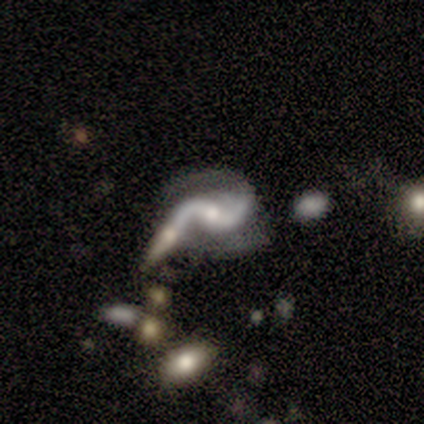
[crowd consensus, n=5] A featured or disk galaxy (100%) with a weak bar (80%), 2 (100%) loose (80%) spiral arms (100%) and a moderate central bulge (80%). Merging: minor disturbance (60%).